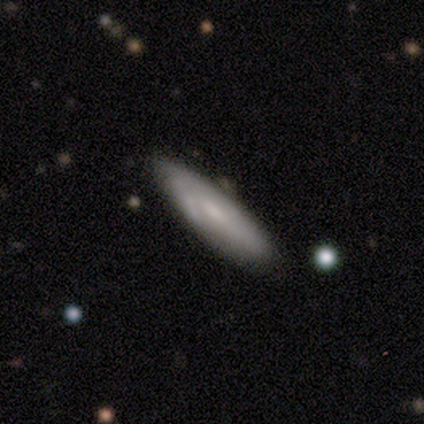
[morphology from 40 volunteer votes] Overall: featured or disk (57%; smooth 38%). Edge-on disk: no (57%; yes 43%). Bar: no (69%; weak 31%). Spiral arms: yes (54%; no 46%). Spiral arm count: can't tell (57%; 2 29%). Spiral winding: tight (43%, tied with medium). Bulge size: small (54%; none 31%). Merging: none (61%).